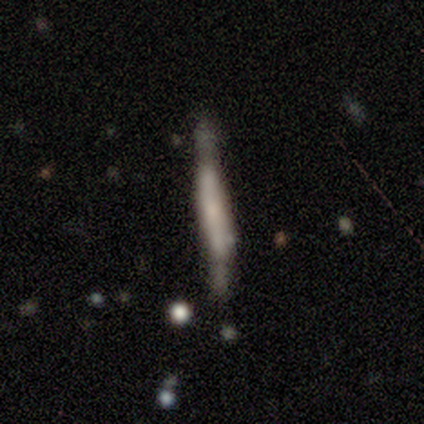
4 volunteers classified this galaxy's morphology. A smooth galaxy with no disk features (50%, tied with featured or disk) that is cigar-shaped (100%).

Vote fractions:
- Smooth or featured? smooth: 50% (tied) / featured or disk: 50% (tied) / star or artifact: 0%
- How rounded? cigar-shaped: 100% / round: 0% / in between: 0%
- Merging? none: 50% (tied) / minor disturbance: 50% (tied) / major disturbance: 0% / merger: 0%